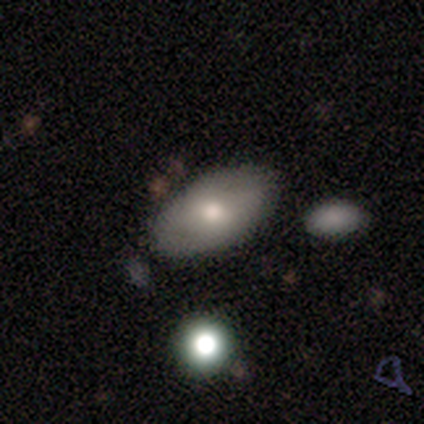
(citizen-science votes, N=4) Smooth or featured?
  - smooth: 100% *
  - featured or disk: 0%
  - star or artifact: 0%
How rounded?
  - in between: 100% *
  - round: 0%
  - cigar-shaped: 0%
Merging?
  - none: 100% *
  - minor disturbance: 0%
  - major disturbance: 0%
  - merger: 0%